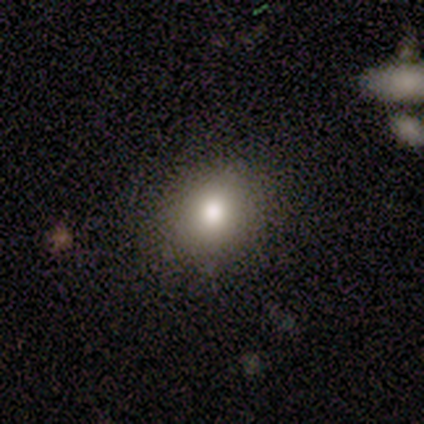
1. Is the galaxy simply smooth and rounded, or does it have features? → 80% smooth, 20% star or artifact, 0% featured or disk.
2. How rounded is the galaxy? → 75% round, 25% in between, 0% cigar-shaped.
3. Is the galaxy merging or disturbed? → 100% none, 0% minor disturbance, 0% major disturbance, 0% merger.